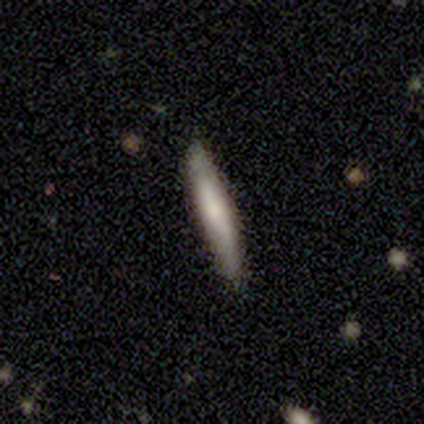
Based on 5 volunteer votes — Morphology: type=smooth (60%); roundness=cigar-shaped (100%); merging=none (80%).